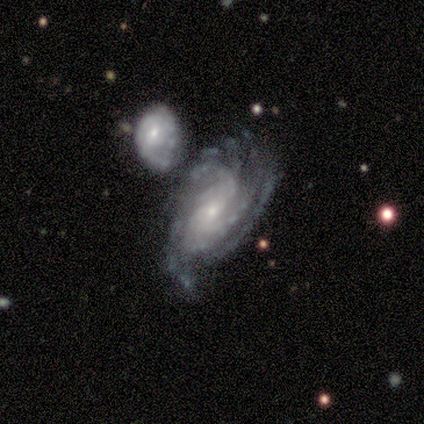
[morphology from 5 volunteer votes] type=featured or disk (80%); edge-on=no (100%); bar=no (75%); spiral arms=yes (100%); winding=medium (75%); arm count=more than 4 (50%); bulge=small (75%); merging=minor disturbance (50%, tied with merger).